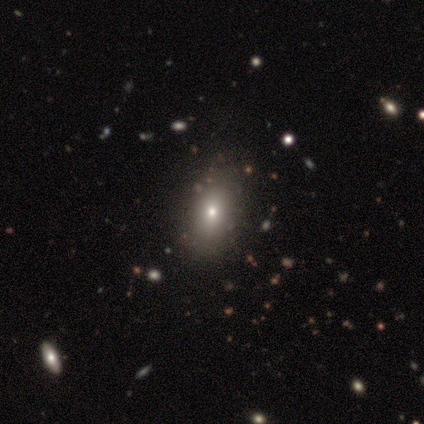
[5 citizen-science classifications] Smooth or featured? 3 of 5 (60%) said star or artifact.